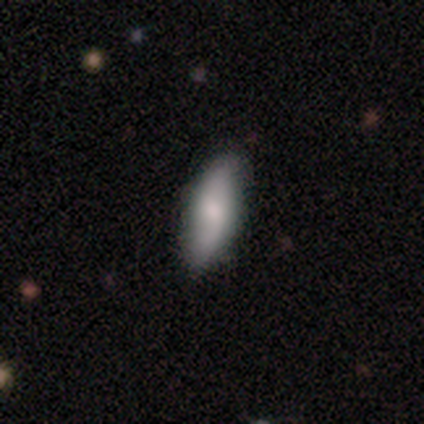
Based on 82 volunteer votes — Q: Smooth or featured?
A: smooth (61%); runner-up: featured or disk (34%)
Q: How rounded?
A: in between (70%); runner-up: cigar-shaped (26%)
Q: Merging?
A: none (81%); runner-up: minor disturbance (14%)